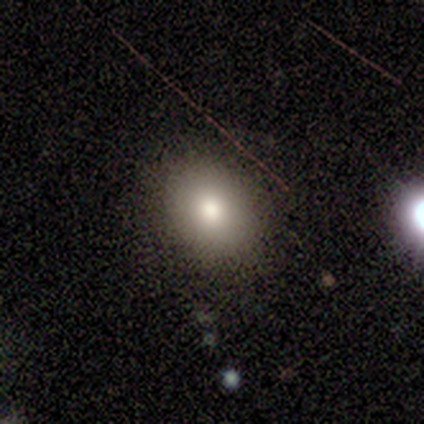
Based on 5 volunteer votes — smooth-or-featured: smooth: 60% | star or artifact: 40% | featured or disk: 0%
  how-rounded: in between: 67% | round: 33% | cigar-shaped: 0%
  merging: none: 67% | minor disturbance: 33% | major disturbance: 0% | merger: 0%